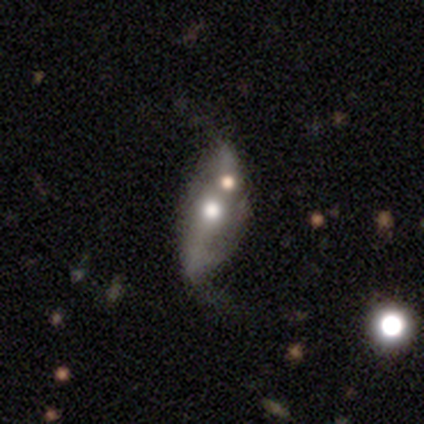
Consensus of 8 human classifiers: Q: Smooth or featured?
A: smooth (50%); tied with: featured or disk (50%)
Q: How rounded?
A: in between (75%); runner-up: cigar-shaped (25%)
Q: Merging?
A: none (62%); runner-up: minor disturbance (38%)